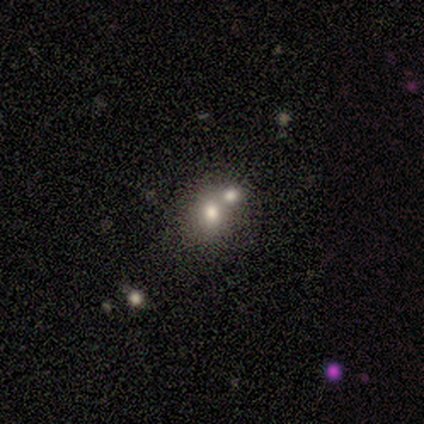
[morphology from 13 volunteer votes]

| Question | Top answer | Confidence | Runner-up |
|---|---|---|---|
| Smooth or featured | smooth | 77% | featured or disk (15%) |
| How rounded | round | 50% | tied: in between (50%) |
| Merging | merger | 75% | none (25%) |